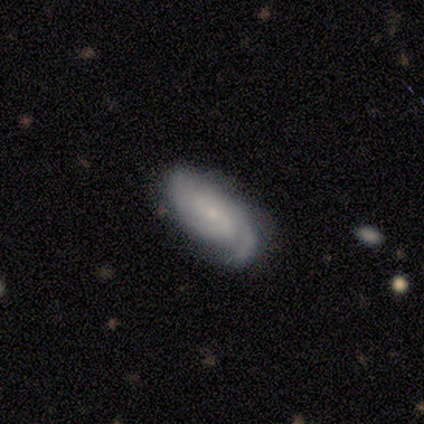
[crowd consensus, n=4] Overall: featured or disk (75%). Edge-on disk: no (100%). Bar: no (100%). Spiral arms: yes (100%). Spiral arm count: 2 (67%; 3 33%). Spiral winding: medium (67%; tight 33%). Bulge size: small (100%). Merging: none (100%).